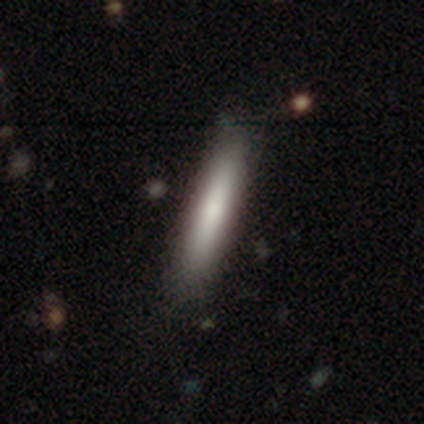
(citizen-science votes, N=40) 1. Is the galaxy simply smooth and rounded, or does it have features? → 75% smooth, 20% featured or disk, 5% star or artifact.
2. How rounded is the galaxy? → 90% cigar-shaped, 10% in between, 0% round.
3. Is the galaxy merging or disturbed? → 58% none, 8% minor disturbance, 3% merger, 0% major disturbance.